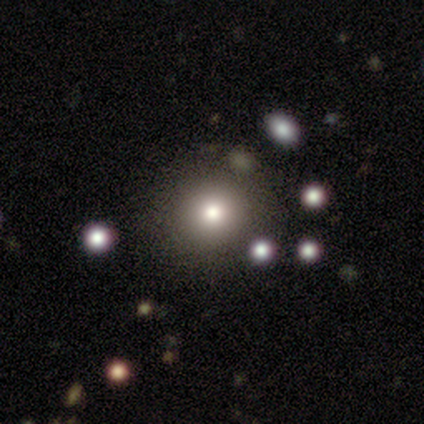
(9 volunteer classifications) This appears to be a smooth galaxy with no disk features (78%) that is round (86%). Merging: none (88%).